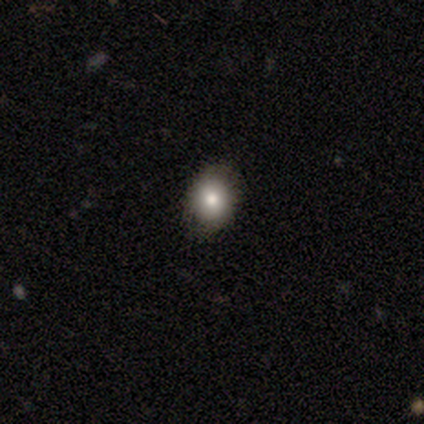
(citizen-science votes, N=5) Smooth or featured? smooth (60%)
How rounded? round (67%)
Merging? none (100%)